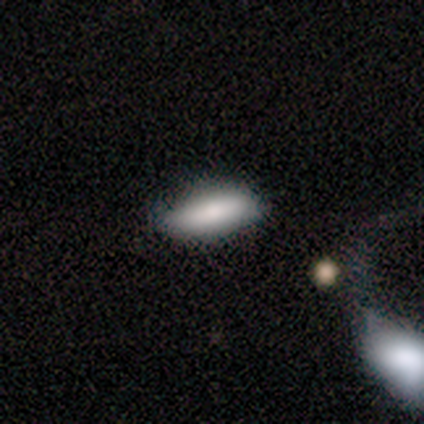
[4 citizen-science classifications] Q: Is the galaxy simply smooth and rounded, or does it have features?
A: smooth — 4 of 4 (100%).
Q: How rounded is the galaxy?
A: in between — 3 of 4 (75%).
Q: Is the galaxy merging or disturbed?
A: none — 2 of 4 (50%, tied with minor disturbance).